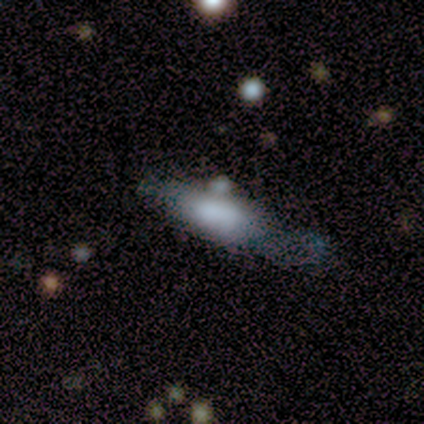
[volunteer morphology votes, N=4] smooth 50% (tied), featured or disk 50% (tied), star or artifact 0%. Down the decision tree: how rounded — in between (100%); merging — major disturbance (50%, tied with merger).